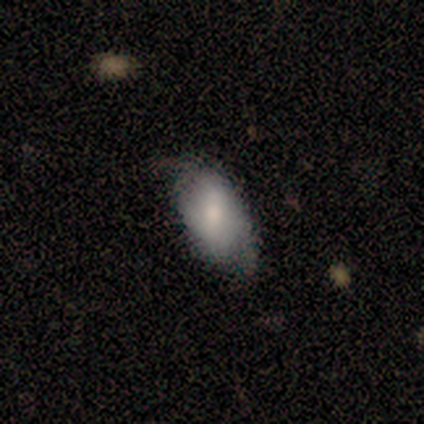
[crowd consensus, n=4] Smooth or featured?
  - smooth: 50% * (tied)
  - featured or disk: 50% * (tied)
  - star or artifact: 0%
How rounded?
  - in between: 100% *
  - round: 0%
  - cigar-shaped: 0%
Merging?
  - minor disturbance: 50% *
  - none: 25%
  - major disturbance: 25%
  - merger: 0%